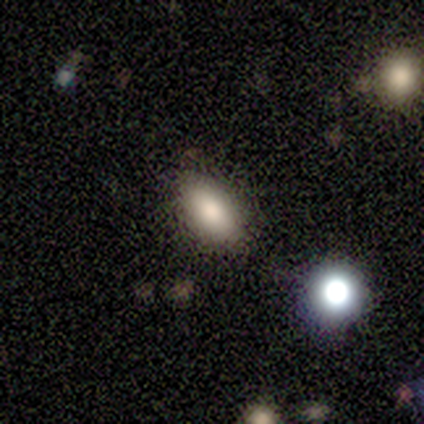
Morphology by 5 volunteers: A smooth galaxy with no disk features (100%) that is in between round and cigar-shaped (60%).

Vote fractions:
- Smooth or featured? smooth: 100% / featured or disk: 0% / star or artifact: 0%
- How rounded? in between: 60% / cigar-shaped: 40% / round: 0%
- Merging? none: 100% / minor disturbance: 0% / major disturbance: 0% / merger: 0%